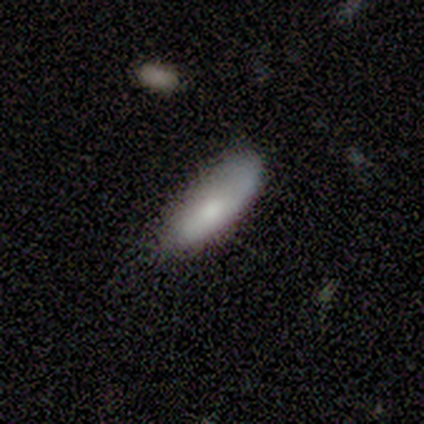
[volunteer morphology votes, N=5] smooth_or_featured: smooth (p=0.60) [alt: featured or disk p=0.20]
how_rounded: cigar-shaped (p=0.67) [alt: in between p=0.33]
merging: minor disturbance (p=0.75) [alt: none p=0.25]